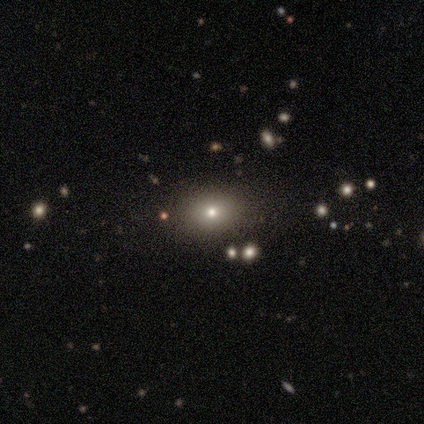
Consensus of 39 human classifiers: smooth_or_featured: smooth (p=0.67) [alt: star or artifact p=0.18]
how_rounded: in between (p=0.58) [alt: round p=0.42]
merging: none (p=0.97) [alt: minor disturbance p=0.03]